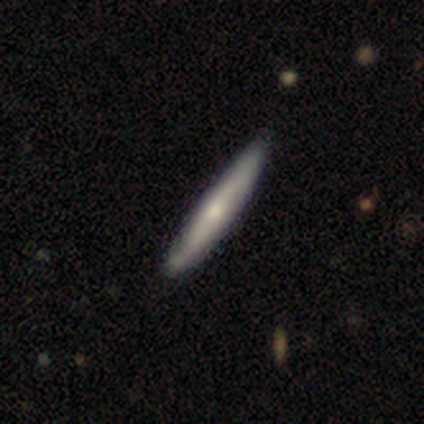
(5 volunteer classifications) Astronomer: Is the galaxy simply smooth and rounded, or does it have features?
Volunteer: featured or disk — 60% (runner-up: smooth, 40%).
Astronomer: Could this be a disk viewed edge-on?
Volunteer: no — 67%.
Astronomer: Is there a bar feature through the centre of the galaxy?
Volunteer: no — 100%.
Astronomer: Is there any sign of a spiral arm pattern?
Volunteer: yes — 100%.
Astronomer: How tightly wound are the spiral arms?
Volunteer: tight — 100%.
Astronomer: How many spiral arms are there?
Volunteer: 2 — 50%, tied with can't tell at 50%.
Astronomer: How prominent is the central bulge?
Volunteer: moderate — 50%, tied with small at 50%.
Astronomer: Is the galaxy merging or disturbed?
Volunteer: none — 80%.